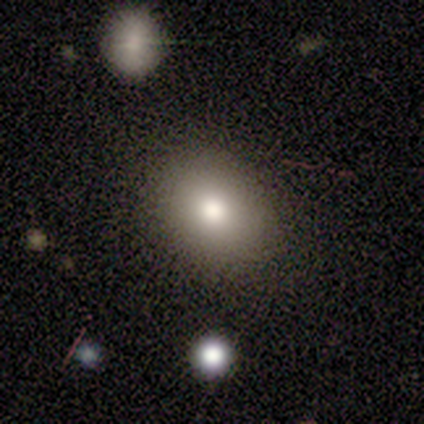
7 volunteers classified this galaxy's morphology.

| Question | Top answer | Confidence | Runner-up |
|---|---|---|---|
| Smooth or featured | smooth | 100% | — |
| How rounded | round | 71% | in between (29%) |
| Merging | none | 100% | — |